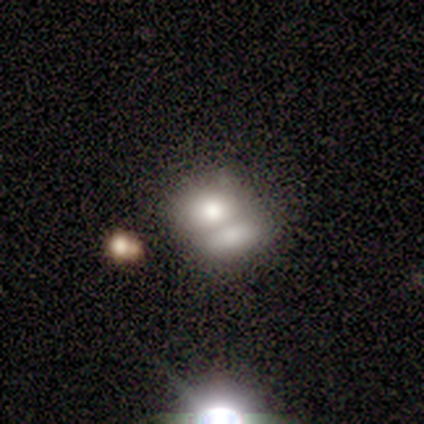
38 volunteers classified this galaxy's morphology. Overall: smooth (66%). How rounded: in between (60%; round 40%). Merging: merger (74%).